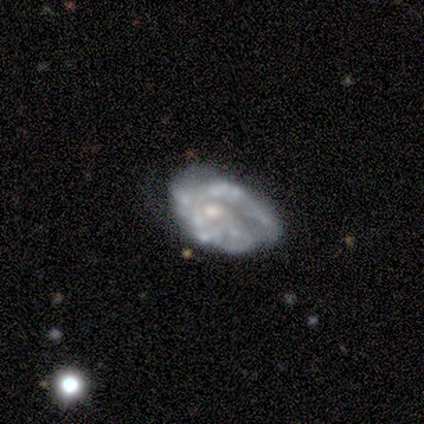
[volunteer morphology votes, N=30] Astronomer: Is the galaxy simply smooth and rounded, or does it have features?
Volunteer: featured or disk — 73%.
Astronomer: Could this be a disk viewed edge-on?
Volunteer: no — 100%.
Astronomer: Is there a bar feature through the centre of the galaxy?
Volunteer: no — 82%.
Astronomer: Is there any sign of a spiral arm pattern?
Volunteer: no — 55% (runner-up: yes, 45%).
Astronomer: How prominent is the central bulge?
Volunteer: small — 50% (runner-up: moderate, 36%).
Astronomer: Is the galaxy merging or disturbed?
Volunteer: none — 46% (runner-up: minor disturbance, 35%).